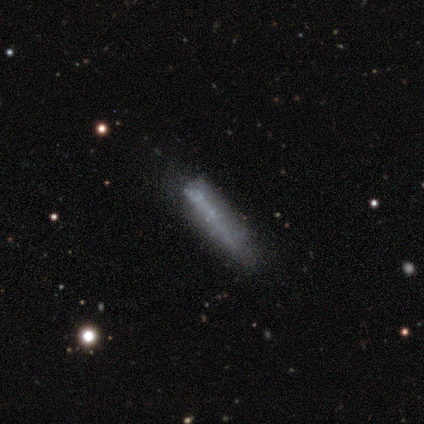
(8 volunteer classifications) Smooth or featured: smooth — 62% (featured or disk — 25%)
How rounded: cigar-shaped — 100%
Merging: none — 86% (major disturbance — 14%)